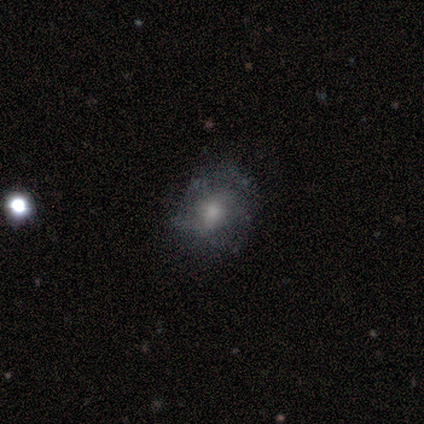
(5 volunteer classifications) Volunteers were most divided on "spiral arms" (2-way tie): yes: 50%, no: 50%. More confident: bar — no (100%); spiral winding — loose (100%); spiral arm count — can't tell (100%); bulge size — small (100%); merging — none (75%); edge-on disk — no (67%); smooth or featured — featured or disk (60%).